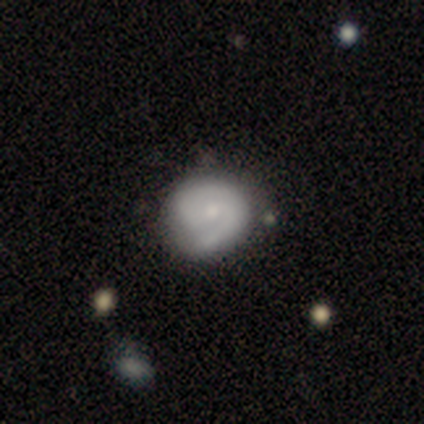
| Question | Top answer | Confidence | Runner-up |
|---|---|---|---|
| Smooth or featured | featured or disk | 59% | smooth (38%) |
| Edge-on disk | no | 96% | yes (4%) |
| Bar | no | 50% | weak (45%) |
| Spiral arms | yes | 95% | no (5%) |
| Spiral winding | medium | 57% | tight (38%) |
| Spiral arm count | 2 | 52% | 1 (38%) |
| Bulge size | small | 59% | moderate (27%) |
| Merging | none | 47% | minor disturbance (16%) |